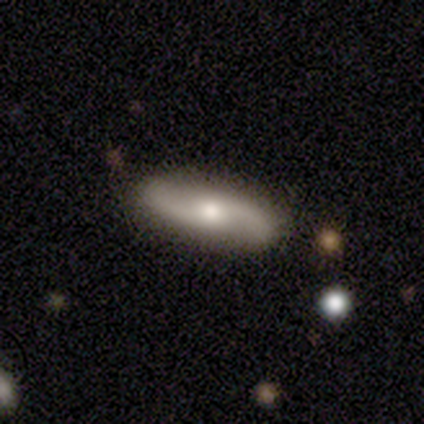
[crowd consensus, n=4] smooth-or-featured: featured or disk: 100% | smooth: 0% | star or artifact: 0%
  disk-edge-on: no: 100% | yes: 0%
    bar: no: 75% | weak: 25% | strong: 0%
    has-spiral-arms: yes: 75% | no: 25%
      spiral-winding: tight: 67% | loose: 33% | medium: 0%
      spiral-arm-count: 2: 100% | 1: 0% | 3: 0% | 4: 0% | more than 4: 0% | can't tell: 0%
    bulge-size: moderate: 50% (tied) | small: 50% (tied) | dominant: 0% | large: 0% | none: 0%
  merging: none: 100% | minor disturbance: 0% | major disturbance: 0% | merger: 0%